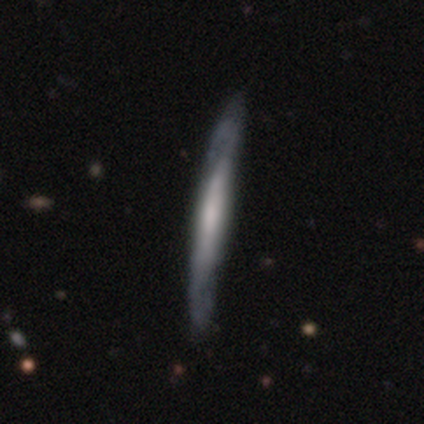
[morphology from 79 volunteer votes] Volunteers were most divided on "merging": none: 38%, minor disturbance: 13%, major disturbance: 1%, merger: 0%. More confident: edge-on disk — yes (85%); smooth or featured — featured or disk (68%); edge-on bulge — none (61%).